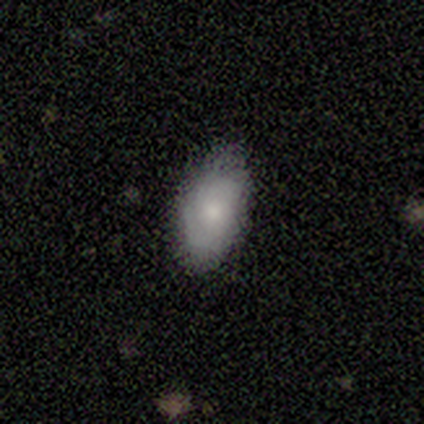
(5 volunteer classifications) smooth_or_featured: smooth (p=0.60) [alt: featured or disk p=0.40]
how_rounded: in between (p=1.00)
merging: none (p=0.80) [alt: minor disturbance p=0.20]